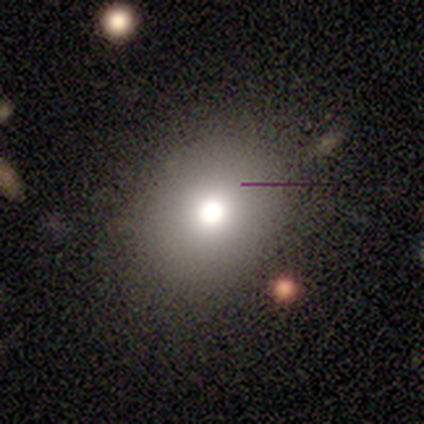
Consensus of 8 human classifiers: Smooth or featured?
  - smooth: 88% *
  - star or artifact: 12%
  - featured or disk: 0%
How rounded?
  - in between: 71% *
  - round: 29%
  - cigar-shaped: 0%
Merging?
  - none: 86% *
  - major disturbance: 14%
  - minor disturbance: 0%
  - merger: 0%